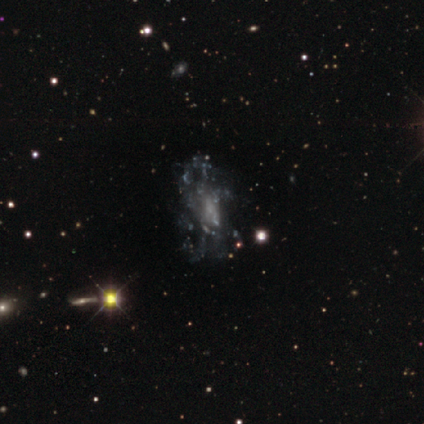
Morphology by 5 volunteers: Overall: featured or disk (80%). Edge-on disk: no (100%). Bar: no (100%). Spiral arms: yes (50%, tied with no). Spiral arm count: can't tell (100%). Spiral winding: medium (50%, tied with loose). Bulge size: none (75%). Merging: none (60%; major disturbance 40%).